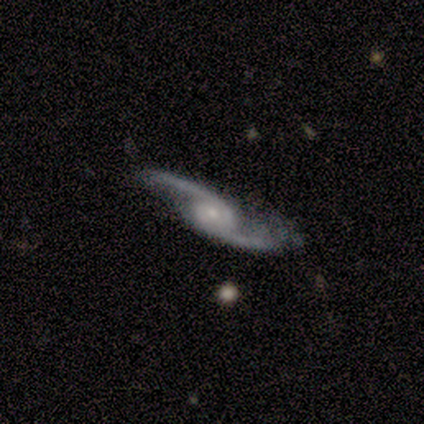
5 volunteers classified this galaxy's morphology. This is clearly a featured or disk galaxy (100%). It is clearly not viewed edge-on (100%). Bar: clearly no (80%). Spiral arm pattern: clearly yes (100%). Spiral arm count: clearly 2 (100%). Spiral winding: clearly loose (100%). Central bulge: likely moderate (60%). Merging: likely none (60%).